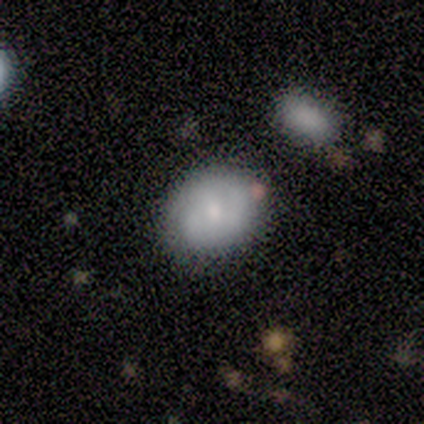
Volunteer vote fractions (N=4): This appears to be a smooth galaxy with no disk features (75%) that is round (67%). Merging: none (100%).